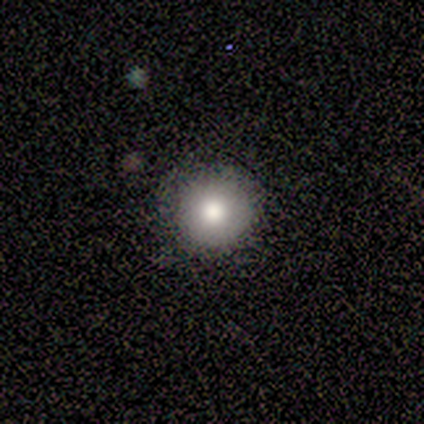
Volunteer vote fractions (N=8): Smooth or featured? smooth (75%)
How rounded? round (100%)
Merging? none (67%)